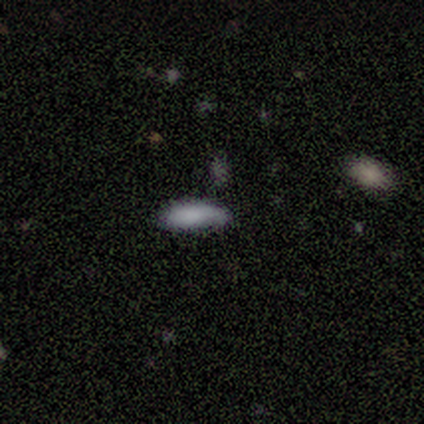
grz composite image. It shows a smooth galaxy with no disk features (80%) that is in between round and cigar-shaped (75%). Merging: none (50%).